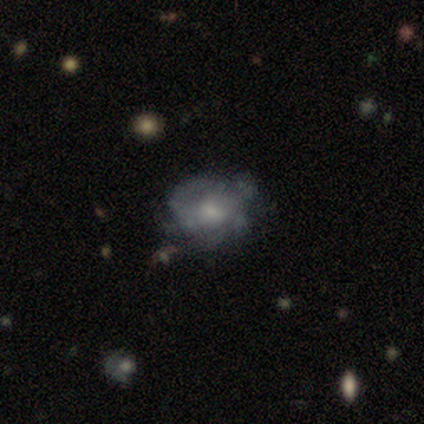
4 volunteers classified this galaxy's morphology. A featured or disk galaxy (100%) with no bar (100%), no spiral arms (75%) and a moderate central bulge (75%).

Vote fractions:
- Smooth or featured? featured or disk: 100% / smooth: 0% / star or artifact: 0%
- Edge-on disk? no: 100% / yes: 0%
- Bar? no: 100% / strong: 0% / weak: 0%
- Spiral arms? no: 75% / yes: 25%
- Bulge size? moderate: 75% / small: 25% / dominant: 0% / large: 0% / none: 0%
- Merging? none: 75% / merger: 25% / minor disturbance: 0% / major disturbance: 0%